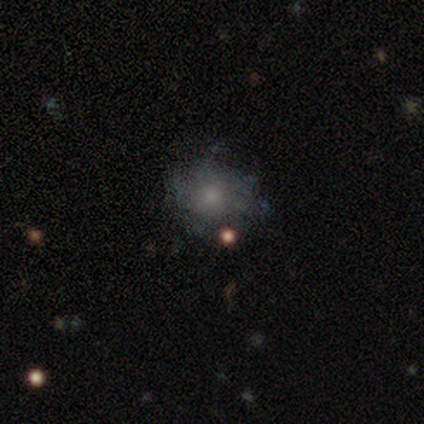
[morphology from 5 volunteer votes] smooth_or_featured: featured or disk (p=0.60) [alt: smooth p=0.40]
disk_edge_on: no (p=1.00)
bar: no (p=1.00)
has_spiral_arms: no (p=1.00)
bulge_size: small (p=1.00)
merging: none (p=0.60) [alt: minor disturbance p=0.40]